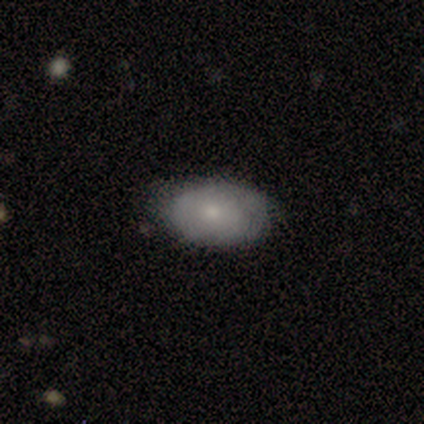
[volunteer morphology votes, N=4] type=smooth (50%, tied with featured or disk); roundness=in between (100%); merging=none (100%).